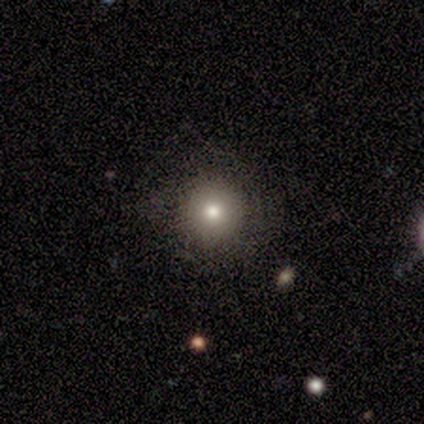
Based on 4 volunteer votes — smooth 75%, star or artifact 25%, featured or disk 0%. Down the decision tree: how rounded — round (100%); merging — none (100%).